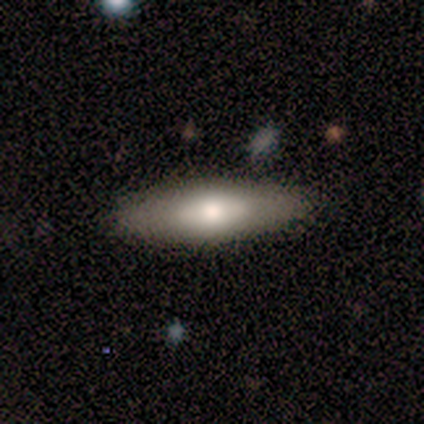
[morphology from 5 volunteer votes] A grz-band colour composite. It shows a smooth galaxy with no disk features (100%) that is in between round and cigar-shaped (60%). Merging: none (100%).